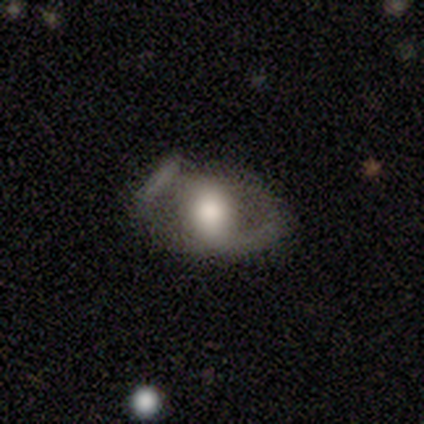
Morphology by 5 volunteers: smooth_or_featured: featured or disk (p=0.80) [alt: smooth p=0.20]
disk_edge_on: no (p=1.00)
bar: no (p=0.75) [alt: weak p=0.25]
has_spiral_arms: yes (p=0.50) [tied with: no p=0.50]
spiral_winding: medium (p=0.50) [tied with: loose p=0.50]
spiral_arm_count: 1 (p=1.00)
bulge_size: large (p=0.50) [tied with: moderate p=0.50]
merging: minor disturbance (p=0.60) [alt: major disturbance p=0.40]